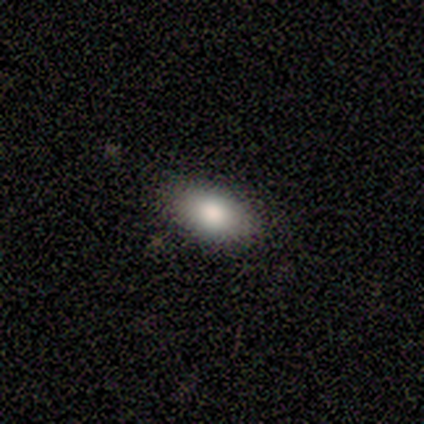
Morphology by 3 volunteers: Consensus on every question: smooth or featured — smooth (100%); how rounded — in between (100%); merging — none (100%).